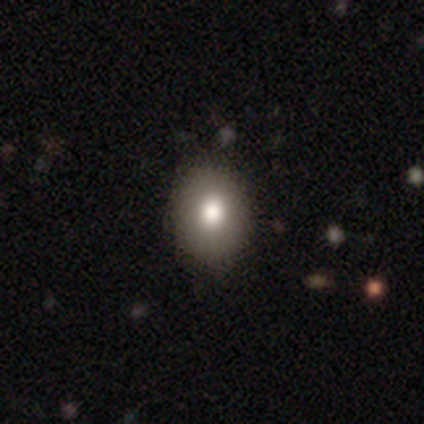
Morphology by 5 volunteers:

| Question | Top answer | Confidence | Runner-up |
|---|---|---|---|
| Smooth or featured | smooth | 60% | featured or disk (40%) |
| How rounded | round | 67% | in between (33%) |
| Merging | none | 100% | — |